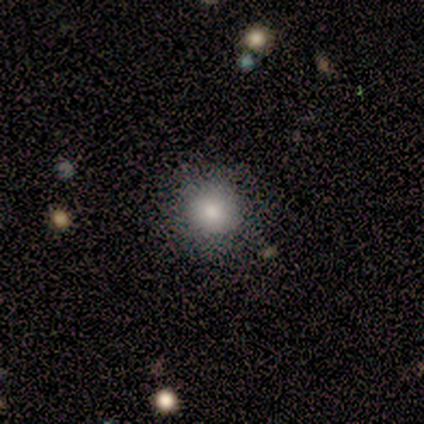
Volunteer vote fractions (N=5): Smooth or featured?
  - smooth: 80% *
  - featured or disk: 20%
  - star or artifact: 0%
How rounded?
  - round: 100% *
  - in between: 0%
  - cigar-shaped: 0%
Merging?
  - none: 100% *
  - minor disturbance: 0%
  - major disturbance: 0%
  - merger: 0%